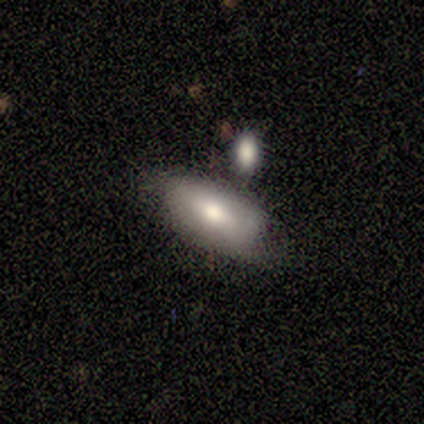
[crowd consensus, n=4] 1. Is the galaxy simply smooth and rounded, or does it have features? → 75% smooth, 25% featured or disk, 0% star or artifact.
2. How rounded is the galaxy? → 100% in between, 0% round, 0% cigar-shaped.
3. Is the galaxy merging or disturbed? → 100% none, 0% minor disturbance, 0% major disturbance, 0% merger.